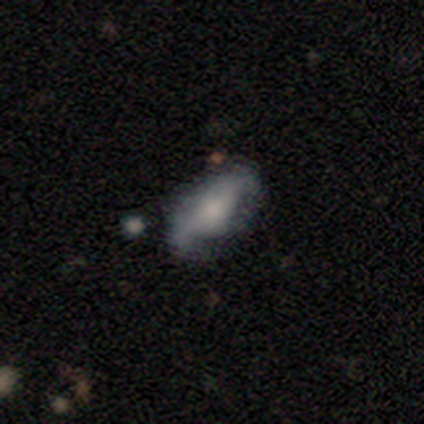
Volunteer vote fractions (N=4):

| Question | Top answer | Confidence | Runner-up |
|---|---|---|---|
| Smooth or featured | smooth | 50% | tied: featured or disk (50%) |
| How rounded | in between | 100% | — |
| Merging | minor disturbance | 100% | — |